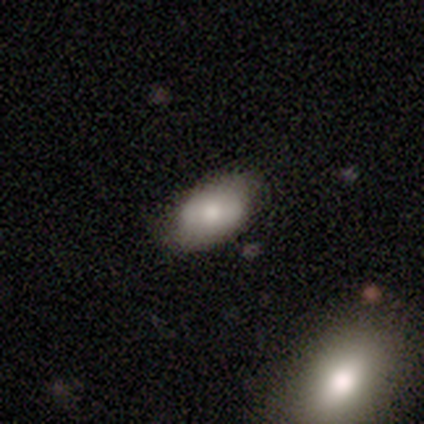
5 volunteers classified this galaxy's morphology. This appears to be a smooth galaxy with no disk features (60%) that is in between round and cigar-shaped (100%). Merging: none (75%).